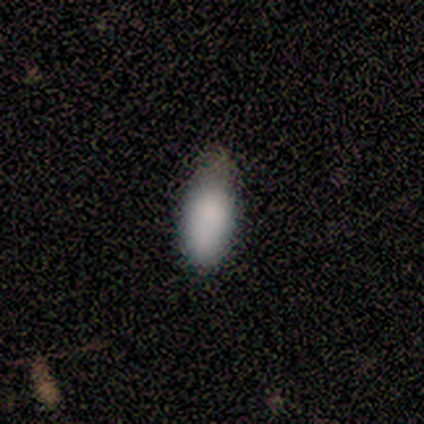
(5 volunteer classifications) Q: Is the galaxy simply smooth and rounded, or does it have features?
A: smooth — 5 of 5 (100%).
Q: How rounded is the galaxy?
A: in between — 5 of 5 (100%).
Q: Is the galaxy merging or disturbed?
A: none — 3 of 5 (60%).